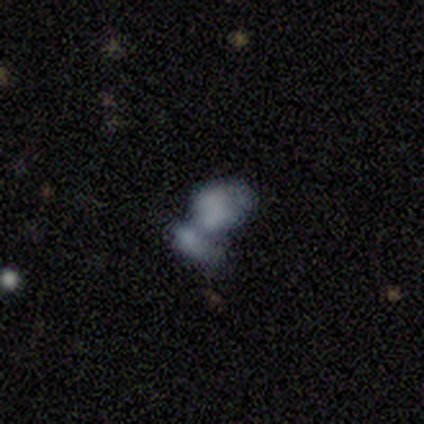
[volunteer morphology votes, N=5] Smooth or featured? smooth (60%)
How rounded? in between (67%)
Merging? merger (75%)